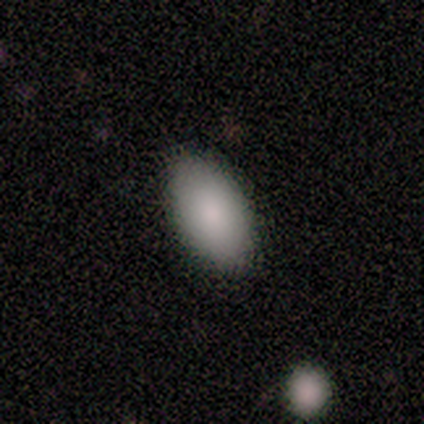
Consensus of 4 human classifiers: smooth_or_featured: smooth (p=1.00)
how_rounded: in between (p=1.00)
merging: none (p=1.00)